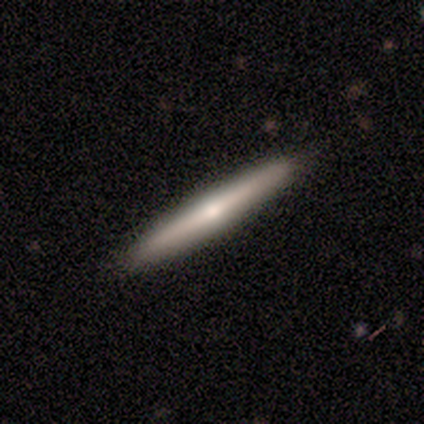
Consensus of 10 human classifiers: This appears to be a featured or disk galaxy (90%) viewed edge-on (100%) with a rounded central bulge (89%). Merging: none (100%).